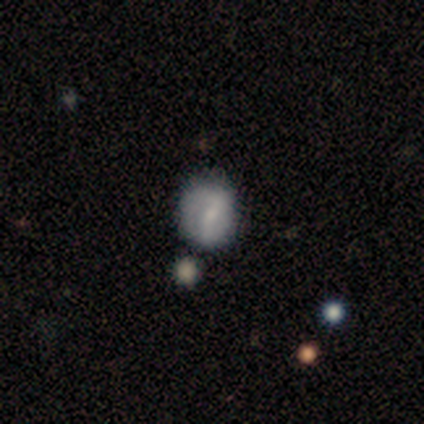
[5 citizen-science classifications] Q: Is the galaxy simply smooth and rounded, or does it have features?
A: smooth — 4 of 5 (80%).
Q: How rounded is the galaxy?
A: round — 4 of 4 (100%).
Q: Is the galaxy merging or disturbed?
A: none — 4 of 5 (80%).